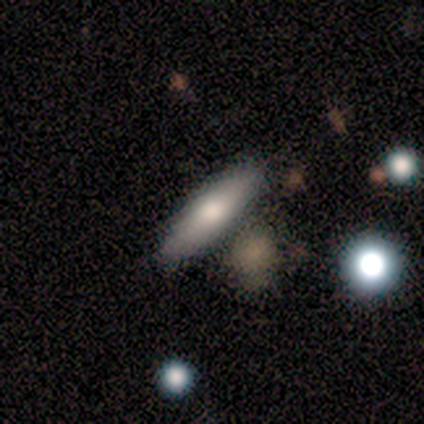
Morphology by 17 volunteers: Smooth or featured: smooth — 65% (featured or disk — 24%)
How rounded: cigar-shaped — 82% (in between — 18%)
Merging: none — 87% (merger — 13%)